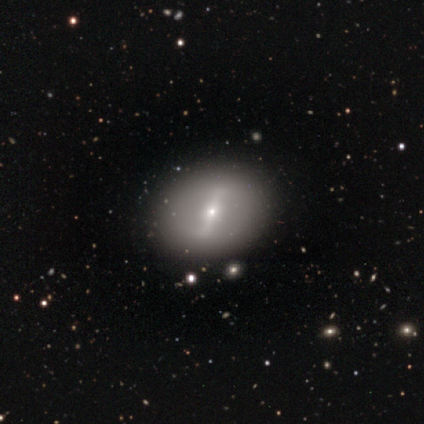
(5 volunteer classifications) Overall: featured or disk (80%). Edge-on disk: no (100%). Bar: strong (100%). Spiral arms: no (100%). Bulge size: small (100%). Merging: none (100%).